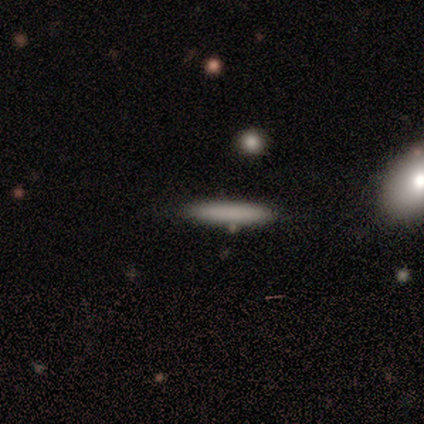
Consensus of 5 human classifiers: Overall: smooth (60%; featured or disk 20%). How rounded: cigar-shaped (100%). Merging: none (100%).